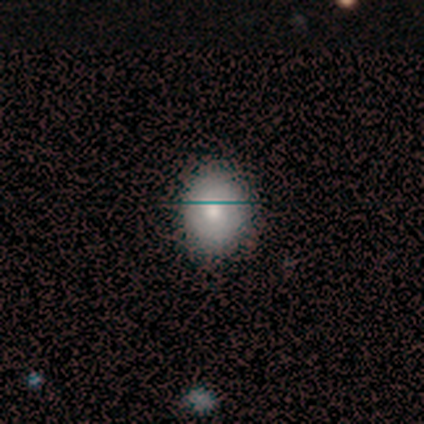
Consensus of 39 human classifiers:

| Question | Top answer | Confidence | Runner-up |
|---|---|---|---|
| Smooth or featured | smooth | 79% | featured or disk (15%) |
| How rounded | round | 65% | in between (35%) |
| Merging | none | 65% | major disturbance (5%) |